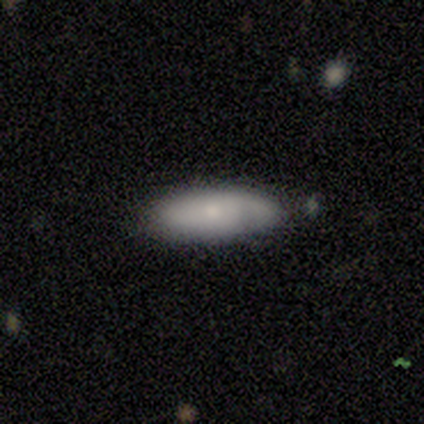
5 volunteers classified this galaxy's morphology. smooth 80%, featured or disk 20%, star or artifact 0%. Down the decision tree: how rounded — in between (75%); merging — none (80%).